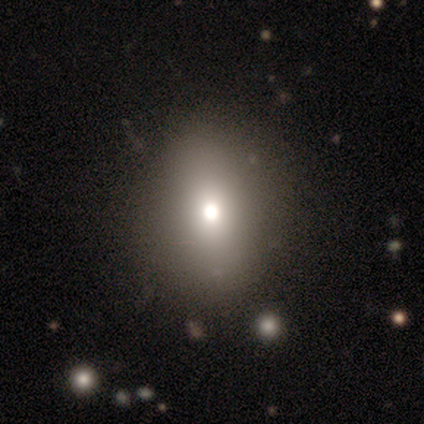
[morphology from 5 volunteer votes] Volunteers were most divided on "merging": none: 75%, minor disturbance: 25%, major disturbance: 0%, merger: 0%. More confident: how rounded — in between (100%); smooth or featured — smooth (80%).